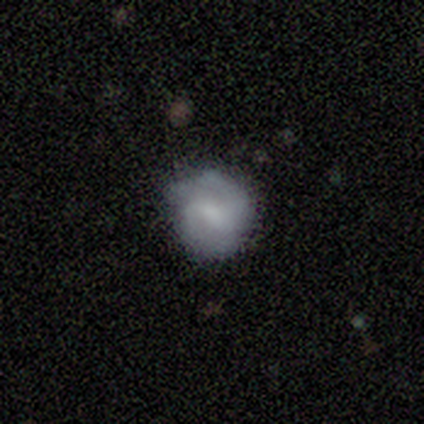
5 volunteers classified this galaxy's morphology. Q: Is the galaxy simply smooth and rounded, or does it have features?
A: featured or disk — 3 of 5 (60%).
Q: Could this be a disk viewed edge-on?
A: no — 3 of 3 (100%).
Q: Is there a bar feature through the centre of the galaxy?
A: weak — 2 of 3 (67%).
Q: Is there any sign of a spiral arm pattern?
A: yes — 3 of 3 (100%).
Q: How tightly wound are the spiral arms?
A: medium — 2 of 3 (67%).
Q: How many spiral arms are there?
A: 2 — 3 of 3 (100%).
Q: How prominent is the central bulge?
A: small — 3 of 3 (100%).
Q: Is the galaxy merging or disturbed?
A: none — 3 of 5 (60%).